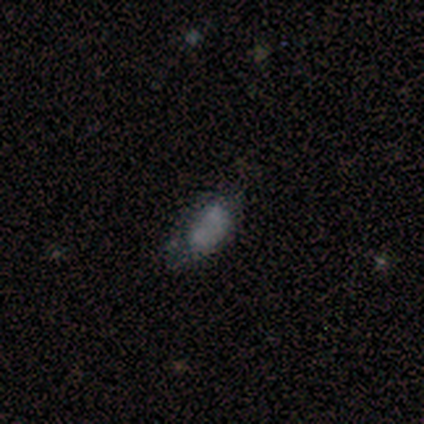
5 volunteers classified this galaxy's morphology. This is likely a featured or disk galaxy (60%). It is clearly not viewed edge-on (100%). Bar: clearly no (100%). Spiral arm pattern: clearly no (100%). Central bulge: likely moderate (67%). Merging: marginally minor disturbance (40%, tied with merger).